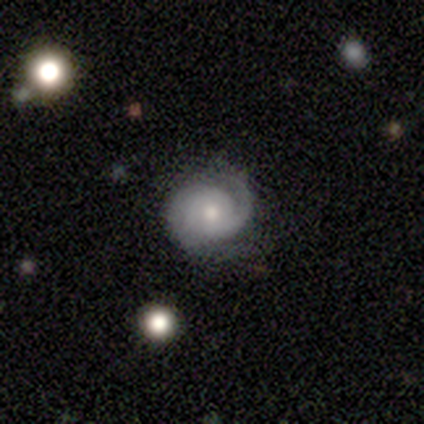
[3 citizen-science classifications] Morphology: type=featured or disk (67%); edge-on=no (100%); bar=weak (50%, tied with no); spiral arms=yes (100%); winding=tight (50%, tied with loose); arm count=1 (50%, tied with can't tell); bulge=moderate (100%); merging=minor disturbance (67%).